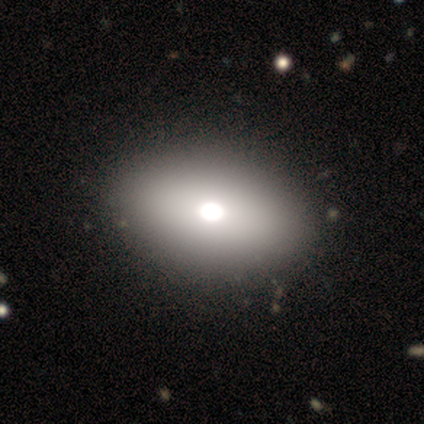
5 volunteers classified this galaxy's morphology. smooth-or-featured: smooth: 100% | featured or disk: 0% | star or artifact: 0%
  how-rounded: in between: 80% | round: 20% | cigar-shaped: 0%
  merging: none: 80% | merger: 20% | minor disturbance: 0% | major disturbance: 0%